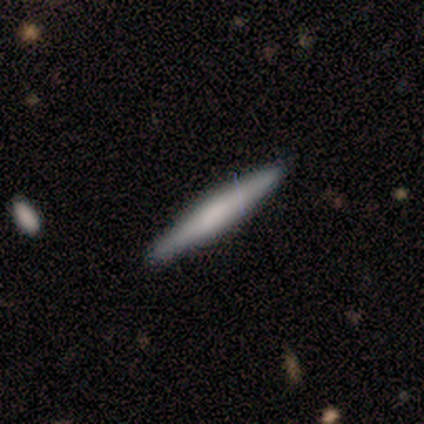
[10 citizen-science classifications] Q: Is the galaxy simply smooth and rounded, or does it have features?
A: smooth — 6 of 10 (60%).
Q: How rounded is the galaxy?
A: cigar-shaped — 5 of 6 (83%).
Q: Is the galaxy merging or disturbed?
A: none — 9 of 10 (90%).